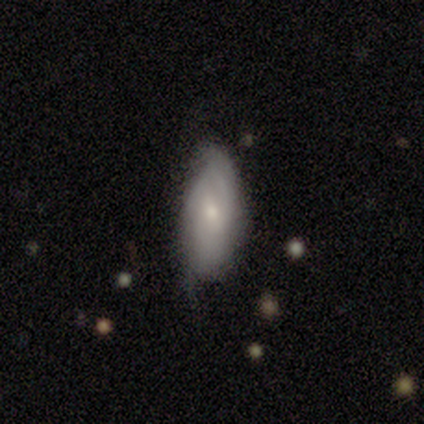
Smooth or featured?
  - featured or disk: 60% *
  - smooth: 40%
  - star or artifact: 0%
Edge-on disk?
  - no: 100% *
  - yes: 0%
Bar?
  - no: 100% *
  - strong: 0%
  - weak: 0%
Spiral arms?
  - yes: 100% *
  - no: 0%
Spiral winding?
  - tight: 100% *
  - medium: 0%
  - loose: 0%
Spiral arm count?
  - 1: 33% * (tied)
  - 4: 33% * (tied)
  - more than 4: 33% * (tied)
  - 2: 0%
  - 3: 0%
  - can't tell: 0%
Bulge size?
  - moderate: 67% *
  - small: 33%
  - dominant: 0%
  - large: 0%
  - none: 0%
Merging?
  - minor disturbance: 60% *
  - none: 40%
  - major disturbance: 0%
  - merger: 0%